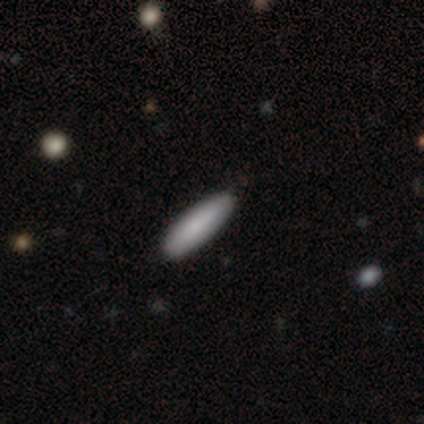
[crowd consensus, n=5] A smooth galaxy with no disk features (100%) that is cigar-shaped (60%).

Vote fractions:
- Smooth or featured? smooth: 100% / featured or disk: 0% / star or artifact: 0%
- How rounded? cigar-shaped: 60% / in between: 40% / round: 0%
- Merging? none: 100% / minor disturbance: 0% / major disturbance: 0% / merger: 0%